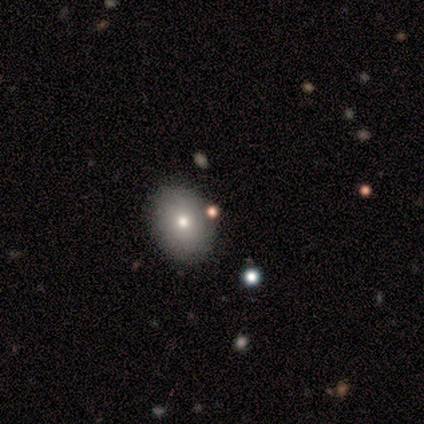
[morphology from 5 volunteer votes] type=smooth (40%, tied with star or artifact); roundness=in between (100%); merging=none (67%).